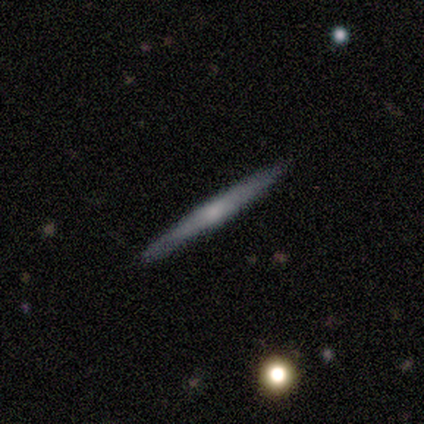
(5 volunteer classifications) This is clearly a featured or disk galaxy (80%). It is clearly viewed edge-on (100%). Edge-on bulge: possibly none (50%, tied with rounded). Merging: clearly none (100%).